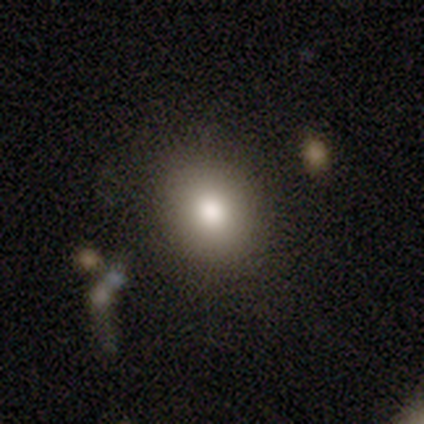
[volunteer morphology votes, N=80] Smooth or featured?
  - smooth: 82% *
  - star or artifact: 11%
  - featured or disk: 6%
How rounded?
  - round: 58% *
  - in between: 41%
  - cigar-shaped: 2%
Merging?
  - none: 83% *
  - minor disturbance: 13%
  - merger: 3%
  - major disturbance: 1%